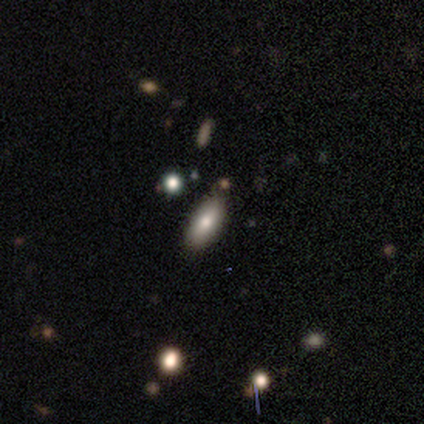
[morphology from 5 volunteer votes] smooth-or-featured: smooth: 60% | featured or disk: 40% | star or artifact: 0%
  how-rounded: in between: 100% | round: 0% | cigar-shaped: 0%
  merging: none: 80% | minor disturbance: 20% | major disturbance: 0% | merger: 0%